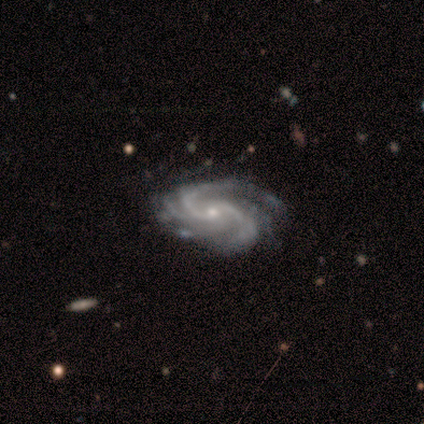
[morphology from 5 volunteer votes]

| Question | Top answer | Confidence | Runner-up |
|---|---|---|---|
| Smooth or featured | featured or disk | 100% | — |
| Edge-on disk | no | 100% | — |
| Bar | no | 60% | weak (40%) |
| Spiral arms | yes | 100% | — |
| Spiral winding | medium | 80% | tight (20%) |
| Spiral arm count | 3 | 60% | 2 (20%) |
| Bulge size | moderate | 60% | small (40%) |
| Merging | none | 60% | major disturbance (20%) |